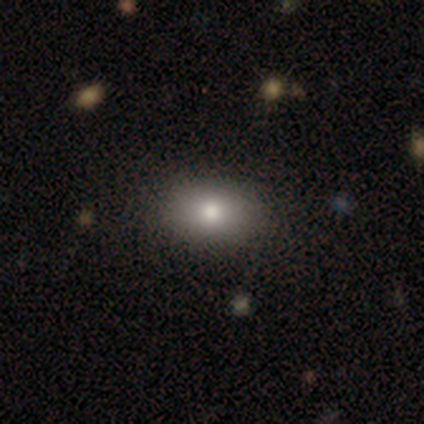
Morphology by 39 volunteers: Smooth or featured: smooth — 82% (star or artifact — 13%)
How rounded: in between — 88% (round — 12%)
Merging: none — 88% (minor disturbance — 9%)